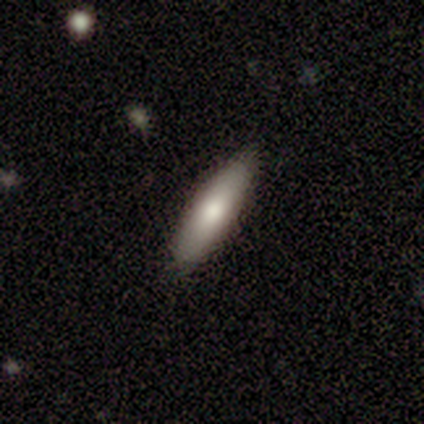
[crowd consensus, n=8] This is clearly a smooth galaxy (88%). How rounded: clearly cigar-shaped (86%). Merging: clearly none (88%).